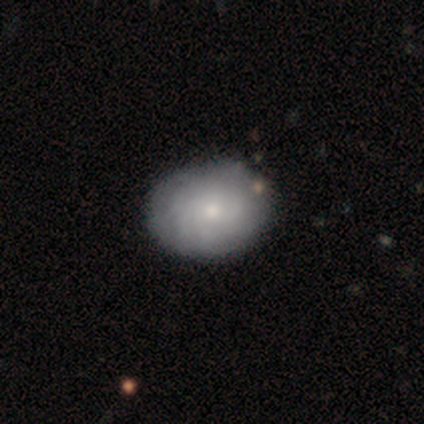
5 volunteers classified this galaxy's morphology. This is likely a smooth galaxy (60%). How rounded: likely in between (67%). Merging: clearly none (80%).